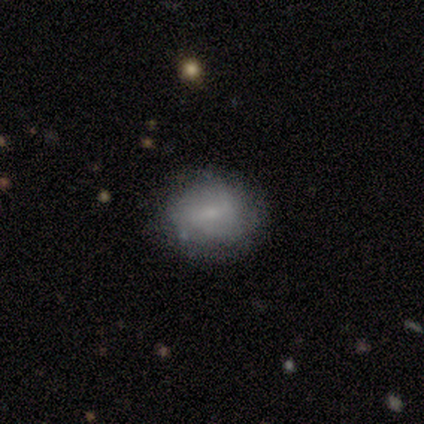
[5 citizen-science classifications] A smooth galaxy with no disk features (60%) that is in between round and cigar-shaped (67%). Merging: none (75%).